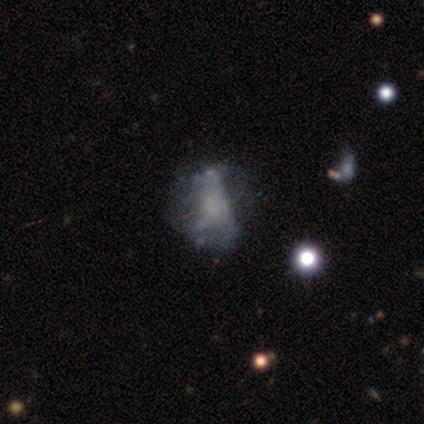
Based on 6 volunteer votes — smooth_or_featured: featured or disk (p=0.67) [alt: smooth p=0.17]
disk_edge_on: no (p=1.00)
bar: no (p=0.75) [alt: weak p=0.25]
has_spiral_arms: yes (p=0.50) [tied with: no p=0.50]
spiral_winding: tight (p=0.50) [tied with: loose p=0.50]
spiral_arm_count: 3 (p=0.50) [tied with: can't tell p=0.50]
bulge_size: moderate (p=0.50) [alt: dominant p=0.25]
merging: none (p=0.40) [tied with: minor disturbance p=0.40]